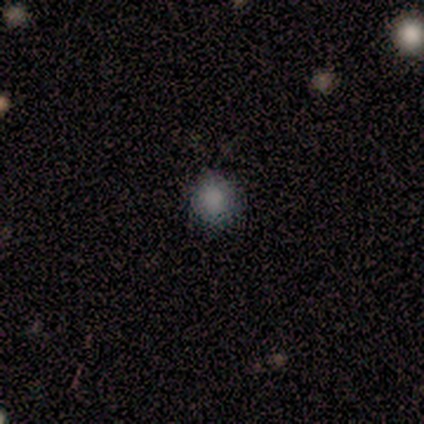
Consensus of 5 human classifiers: Smooth or featured? smooth (80%)
How rounded? round (100%)
Merging? none (75%)